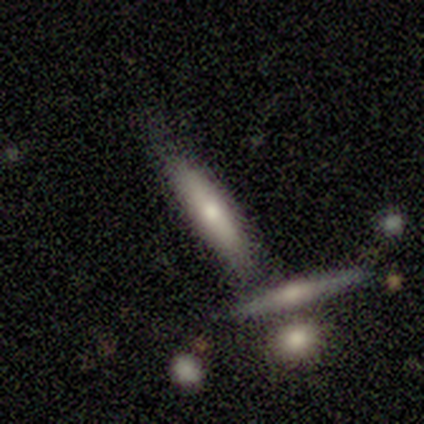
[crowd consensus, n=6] Smooth or featured? 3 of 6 (50%, tied with featured or disk) said smooth. How rounded? 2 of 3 (67%) said cigar-shaped. Merging? 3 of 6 (50%) said none.